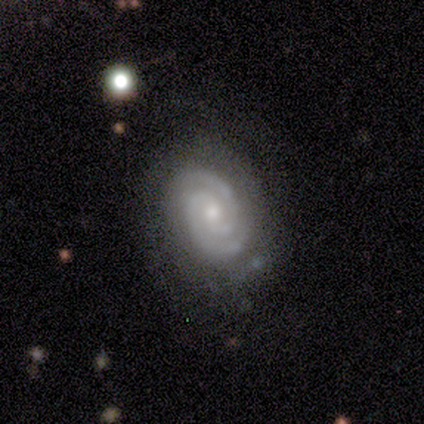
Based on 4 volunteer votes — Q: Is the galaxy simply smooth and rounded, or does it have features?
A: featured or disk — 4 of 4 (100%).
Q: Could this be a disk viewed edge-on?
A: no — 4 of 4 (100%).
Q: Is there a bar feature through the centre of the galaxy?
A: no — 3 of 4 (75%).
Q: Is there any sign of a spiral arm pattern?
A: yes — 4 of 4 (100%).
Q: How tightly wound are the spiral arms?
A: tight — 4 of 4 (100%).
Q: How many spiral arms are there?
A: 3 — 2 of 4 (50%).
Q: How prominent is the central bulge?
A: small — 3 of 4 (75%).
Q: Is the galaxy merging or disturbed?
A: none — 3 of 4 (75%).